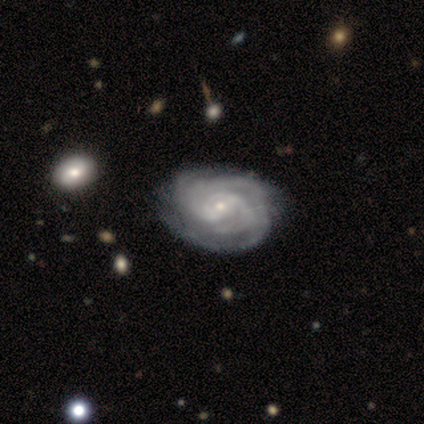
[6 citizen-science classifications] featured or disk 67%, smooth 33%, star or artifact 0%. Down the decision tree: edge-on disk — no (100%); bar — weak (75%); spiral arms — yes (100%); spiral arm count — 2 (50%); spiral winding — tight (100%); bulge size — small (75%); merging — none (50%, tied with minor disturbance).